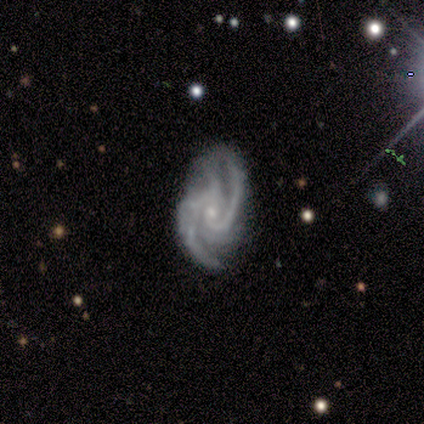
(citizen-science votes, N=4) smooth-or-featured: featured or disk: 100% | smooth: 0% | star or artifact: 0%
  disk-edge-on: no: 100% | yes: 0%
    bar: weak: 75% | no: 25% | strong: 0%
    has-spiral-arms: yes: 100% | no: 0%
      spiral-winding: medium: 50% | tight: 25% | loose: 25%
      spiral-arm-count: 3: 75% | more than 4: 25% | 1: 0% | 2: 0% | 4: 0% | can't tell: 0%
    bulge-size: small: 75% | moderate: 25% | dominant: 0% | large: 0% | none: 0%
  merging: none: 75% | minor disturbance: 25% | major disturbance: 0% | merger: 0%